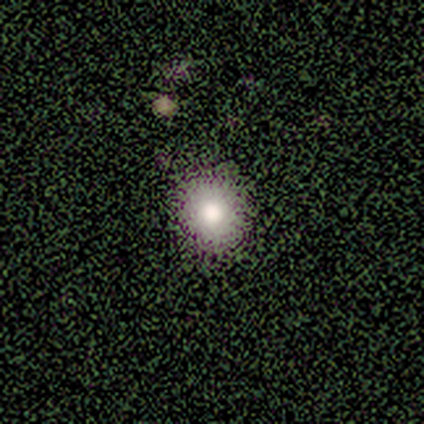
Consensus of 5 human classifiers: Smooth or featured?
  - smooth: 80% *
  - featured or disk: 20%
  - star or artifact: 0%
How rounded?
  - round: 75% *
  - in between: 25%
  - cigar-shaped: 0%
Merging?
  - none: 100% *
  - minor disturbance: 0%
  - major disturbance: 0%
  - merger: 0%